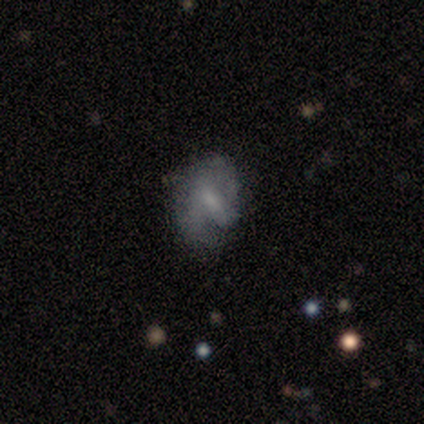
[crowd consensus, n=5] Smooth or featured: featured or disk — 60% (smooth — 20%)
Edge-on disk: no — 100%
Bar: strong — 67% (weak — 33%)
Spiral arms: yes — 67% (no — 33%)
Spiral winding: loose — 100%
Spiral arm count: 1 — 50% (tied with 2 — 50%)
Bulge size: small — 67% (moderate — 33%)
Merging: minor disturbance — 50% (none — 25%)